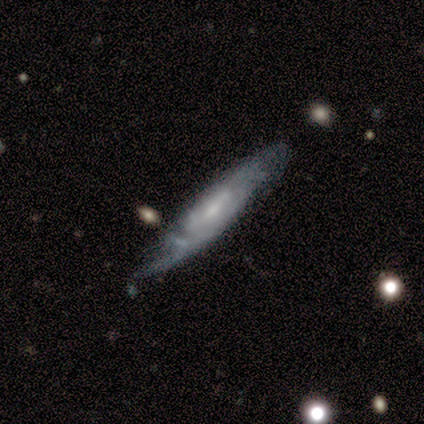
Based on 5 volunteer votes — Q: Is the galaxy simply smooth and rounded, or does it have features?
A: featured or disk — 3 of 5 (60%).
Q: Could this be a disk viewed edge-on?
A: yes — 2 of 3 (67%).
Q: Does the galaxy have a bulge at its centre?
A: boxy — 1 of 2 (50%, tied with rounded).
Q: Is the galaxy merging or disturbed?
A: minor disturbance — 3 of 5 (60%).